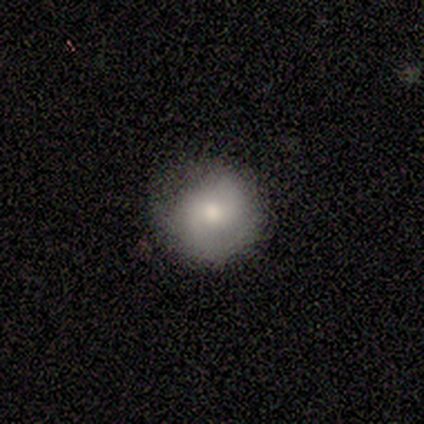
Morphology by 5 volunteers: Q: Smooth or featured?
A: smooth (80%); runner-up: featured or disk (20%)
Q: How rounded?
A: round (100%)
Q: Merging?
A: none (60%); runner-up: minor disturbance (40%)